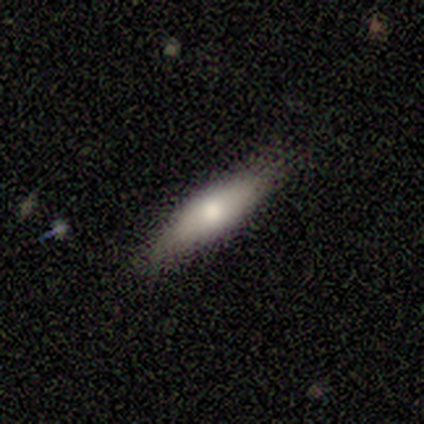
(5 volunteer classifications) Overall: smooth (60%; featured or disk 40%). How rounded: in between (67%; cigar-shaped 33%). Merging: none (80%).